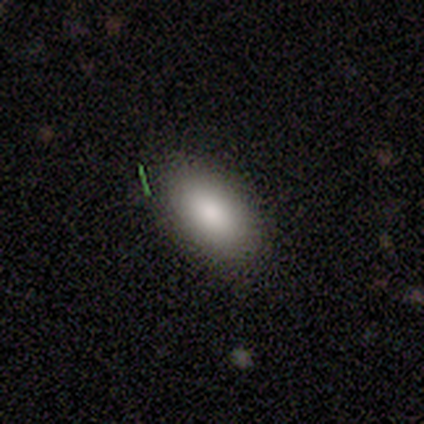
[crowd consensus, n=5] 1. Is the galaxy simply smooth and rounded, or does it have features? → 80% smooth, 20% star or artifact, 0% featured or disk.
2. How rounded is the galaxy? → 75% in between, 25% round, 0% cigar-shaped.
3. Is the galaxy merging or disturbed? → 100% none, 0% minor disturbance, 0% major disturbance, 0% merger.